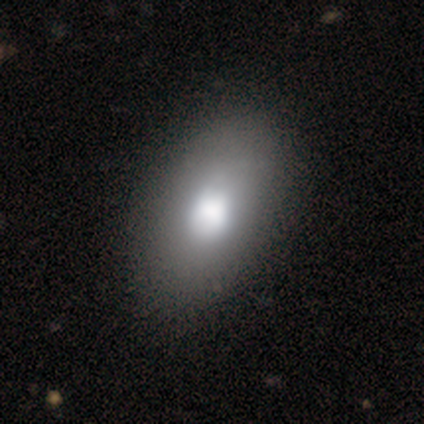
This is marginally a smooth galaxy (33%, tied with featured or disk and star or artifact). How rounded: clearly in between (100%). Merging: clearly none (100%).